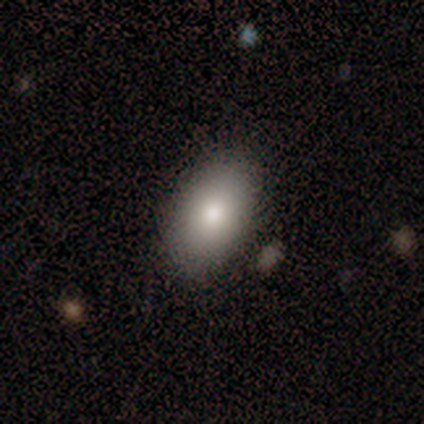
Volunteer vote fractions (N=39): smooth_or_featured: smooth (p=0.85) [alt: featured or disk p=0.08]
how_rounded: in between (p=1.00)
merging: none (p=0.89) [alt: minor disturbance p=0.08]